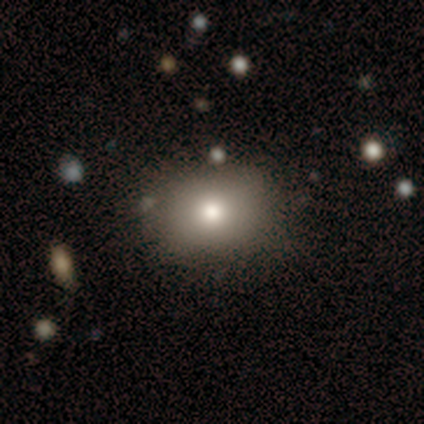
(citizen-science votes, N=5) A smooth galaxy with no disk features (80%) that is round (50%, tied with in between). Merging: none (75%).